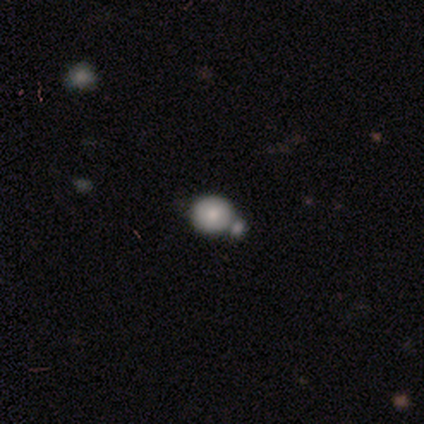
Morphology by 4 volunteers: smooth-or-featured: smooth: 50% | featured or disk: 25% | star or artifact: 25%
  how-rounded: round: 100% | in between: 0% | cigar-shaped: 0%
  merging: none: 67% | minor disturbance: 33% | major disturbance: 0% | merger: 0%